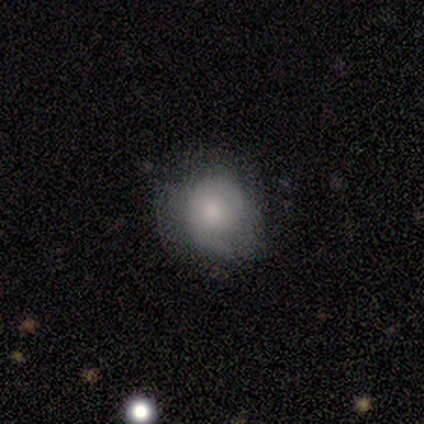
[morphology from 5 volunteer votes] Overall: smooth (40%, tied with star or artifact). How rounded: round (100%). Merging: none (33%, tied with minor disturbance and major disturbance).